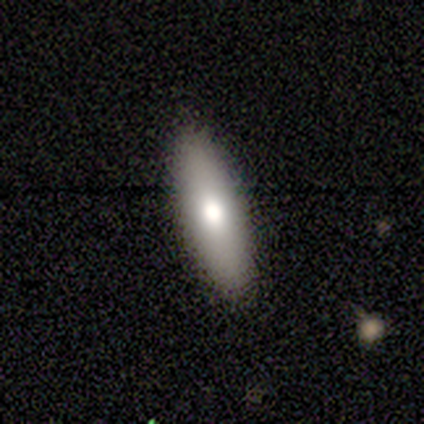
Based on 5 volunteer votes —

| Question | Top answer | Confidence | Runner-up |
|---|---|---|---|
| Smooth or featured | smooth | 60% | featured or disk (20%) |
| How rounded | cigar-shaped | 100% | — |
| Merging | none | 100% | — |